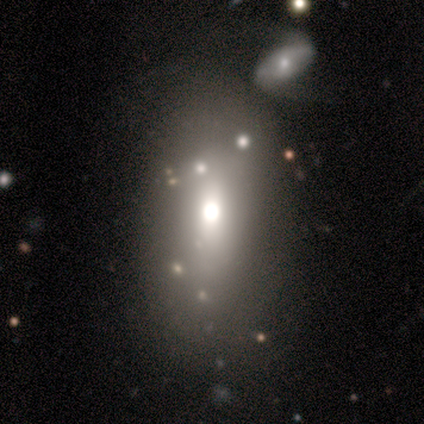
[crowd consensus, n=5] Smooth or featured? 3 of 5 (60%) said smooth. How rounded? 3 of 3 (100%) said in between. Merging? 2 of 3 (67%) said none.